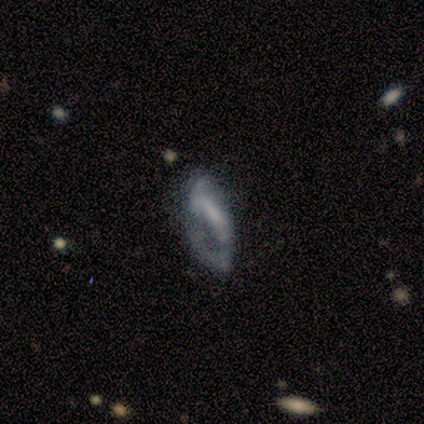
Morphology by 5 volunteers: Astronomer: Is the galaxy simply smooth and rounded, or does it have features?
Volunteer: featured or disk — 60% (runner-up: smooth, 40%).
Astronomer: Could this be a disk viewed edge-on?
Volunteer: no — 67%.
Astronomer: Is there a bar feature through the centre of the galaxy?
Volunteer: strong — 50%, tied with no at 50%.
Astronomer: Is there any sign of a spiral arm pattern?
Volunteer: yes — 50%, tied with no at 50%.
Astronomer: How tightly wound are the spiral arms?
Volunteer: medium — 100%.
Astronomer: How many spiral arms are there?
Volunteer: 2 — 100%.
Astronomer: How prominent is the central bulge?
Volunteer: small — 100%.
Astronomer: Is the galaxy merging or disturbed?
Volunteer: minor disturbance — 40%, tied with major disturbance at 40%.